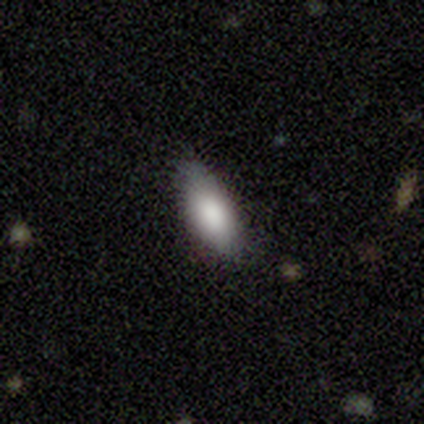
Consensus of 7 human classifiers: Smooth or featured? smooth (71%)
How rounded? in between (100%)
Merging? none (100%)